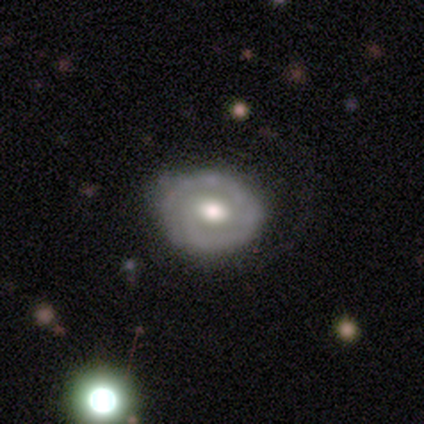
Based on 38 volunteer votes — This appears to be a featured or disk galaxy (79%) with no bar (65%), 2 (44%) tight (78%) spiral arms (69%) and a moderate central bulge (77%). Merging: none (59%).